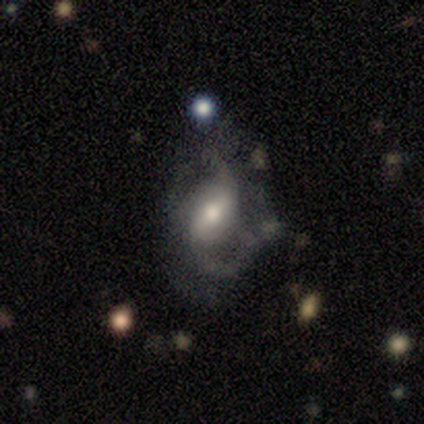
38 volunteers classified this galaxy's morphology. This is likely a featured or disk galaxy (74%). It is clearly not viewed edge-on (100%). Bar: possibly weak (46%). Spiral arm pattern: clearly yes (86%). Spiral arm count: likely 2 (67%). Spiral winding: possibly medium (50%). Central bulge: possibly moderate (50%). Merging: marginally major disturbance (42%).